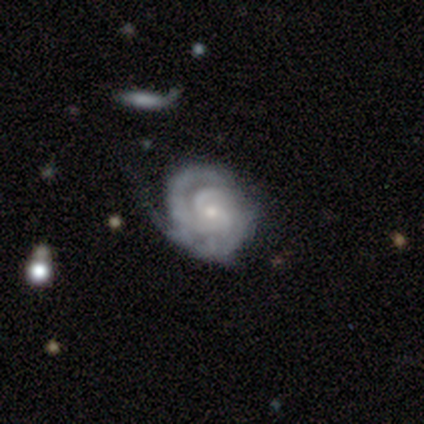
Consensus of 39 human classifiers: A featured or disk galaxy (92%) with no bar (71%), 2 (59%) tight (74%) spiral arms (97%) and a small central bulge (77%).

Vote fractions:
- Smooth or featured? featured or disk: 92% / smooth: 5% / star or artifact: 3%
- Edge-on disk? no: 97% / yes: 3%
- Bar? no: 71% / weak: 23% / strong: 6%
- Spiral arms? yes: 97% / no: 3%
- Spiral winding? tight: 74% / medium: 21% / loose: 6%
- Spiral arm count? 2: 59% / can't tell: 18% / 3: 15% / 4: 6% / 1: 3% / more than 4: 0%
- Bulge size? small: 77% / moderate: 14% / large: 9% / dominant: 0% / none: 0%
- Merging? none: 61% / minor disturbance: 26% / major disturbance: 11% / merger: 3%